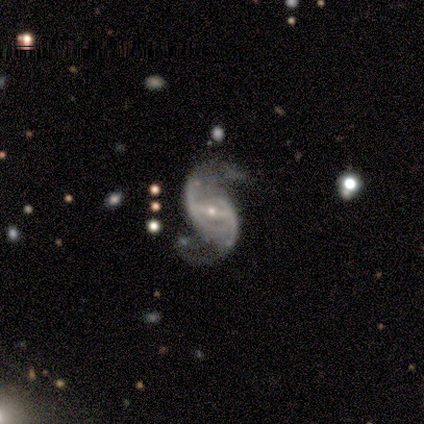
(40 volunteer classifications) Smooth or featured: featured or disk — 92% (star or artifact — 5%)
Edge-on disk: no — 95% (yes — 5%)
Bar: weak — 43% (strong — 40%)
Spiral arms: yes — 97% (no — 3%)
Spiral winding: loose — 53% (medium — 35%)
Spiral arm count: 2 — 94% (1 — 3%)
Bulge size: small — 86% (moderate — 11%)
Merging: none — 74% (major disturbance — 16%)